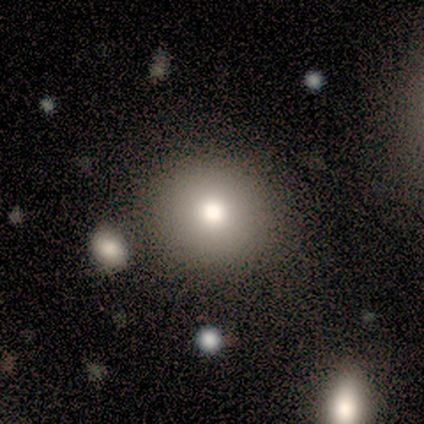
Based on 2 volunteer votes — smooth 100%, featured or disk 0%, star or artifact 0%. Down the decision tree: how rounded — round (100%); merging — none (100%).